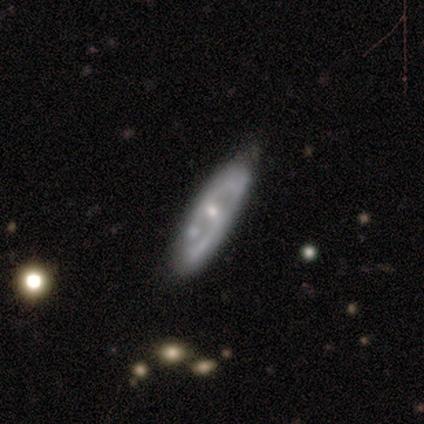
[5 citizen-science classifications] featured or disk 80%, smooth 20%, star or artifact 0%. Down the decision tree: edge-on disk — no (100%); bar — weak (75%); spiral arms — yes (50%, tied with no); spiral arm count — 2 (100%); spiral winding — tight (50%, tied with loose); bulge size — small (100%); merging — minor disturbance (40%, tied with major disturbance).